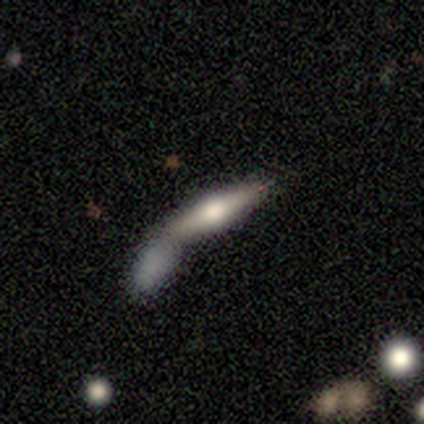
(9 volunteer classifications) Smooth or featured: featured or disk — 56% (smooth — 44%)
Edge-on disk: yes — 80% (no — 20%)
Edge-on bulge: rounded — 100%
Merging: none — 56% (merger — 33%)